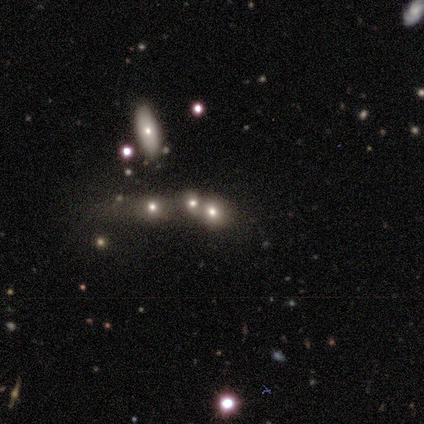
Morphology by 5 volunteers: Smooth or featured? 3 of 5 (60%) said smooth. How rounded? 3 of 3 (100%) said round. Merging? 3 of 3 (100%) said none.